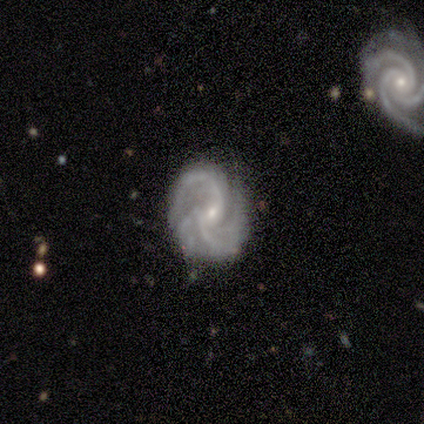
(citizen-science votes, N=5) smooth_or_featured: featured or disk (p=1.00)
disk_edge_on: no (p=1.00)
bar: weak (p=0.40) [tied with: no p=0.40]
has_spiral_arms: yes (p=1.00)
spiral_winding: tight (p=0.40) [tied with: medium p=0.40]
spiral_arm_count: can't tell (p=0.40) [alt: 2 p=0.20]
bulge_size: small (p=0.80) [alt: moderate p=0.20]
merging: none (p=0.60) [alt: minor disturbance p=0.20]